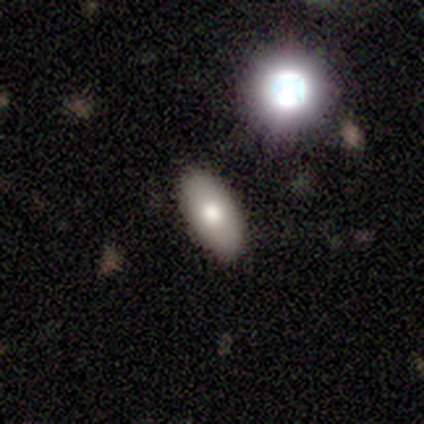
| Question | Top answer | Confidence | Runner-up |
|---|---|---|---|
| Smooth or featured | smooth | 63% | featured or disk (20%) |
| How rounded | in between | 89% | round (5%) |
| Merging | none | 79% | minor disturbance (14%) |